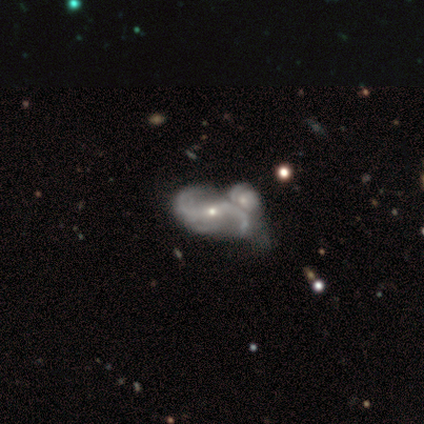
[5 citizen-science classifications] Q: Smooth or featured?
A: featured or disk (100%)
Q: Edge-on disk?
A: no (100%)
Q: Bar?
A: no (60%); runner-up: weak (40%)
Q: Spiral arms?
A: yes (80%); runner-up: no (20%)
Q: Spiral winding?
A: medium (75%); runner-up: loose (25%)
Q: Spiral arm count?
A: 2 (75%); runner-up: 3 (25%)
Q: Bulge size?
A: small (60%); runner-up: none (40%)
Q: Merging?
A: none (60%); runner-up: merger (40%)